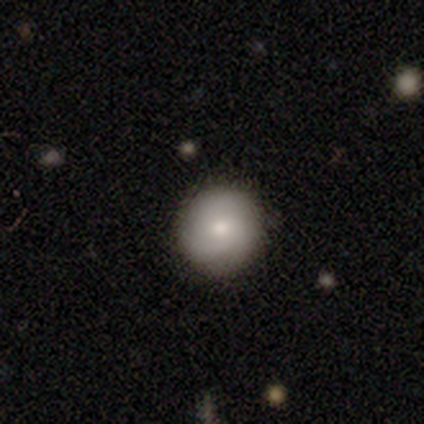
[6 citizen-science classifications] Smooth or featured?
  - featured or disk: 50% *
  - smooth: 33%
  - star or artifact: 17%
Edge-on disk?
  - no: 100% *
  - yes: 0%
Bar?
  - no: 100% *
  - strong: 0%
  - weak: 0%
Spiral arms?
  - no: 67% *
  - yes: 33%
Bulge size?
  - moderate: 67% *
  - small: 33%
  - dominant: 0%
  - large: 0%
  - none: 0%
Merging?
  - none: 100% *
  - minor disturbance: 0%
  - major disturbance: 0%
  - merger: 0%